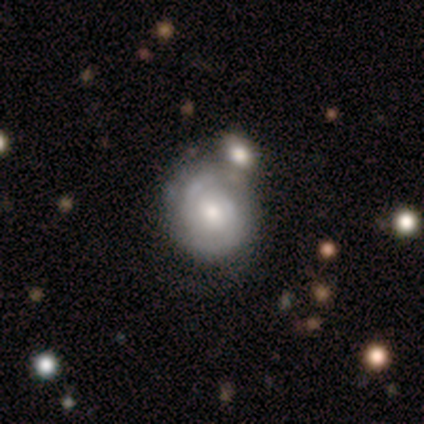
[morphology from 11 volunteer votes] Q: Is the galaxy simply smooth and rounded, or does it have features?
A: featured or disk — 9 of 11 (82%).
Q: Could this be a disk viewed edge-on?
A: no — 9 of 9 (100%).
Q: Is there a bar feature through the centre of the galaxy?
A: no — 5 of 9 (56%).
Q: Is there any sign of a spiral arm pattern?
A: yes — 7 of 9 (78%).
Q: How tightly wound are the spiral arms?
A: tight — 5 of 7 (71%).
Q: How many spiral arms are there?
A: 2 — 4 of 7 (57%).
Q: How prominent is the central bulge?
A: moderate — 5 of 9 (56%).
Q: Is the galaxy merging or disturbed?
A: none — 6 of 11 (55%).